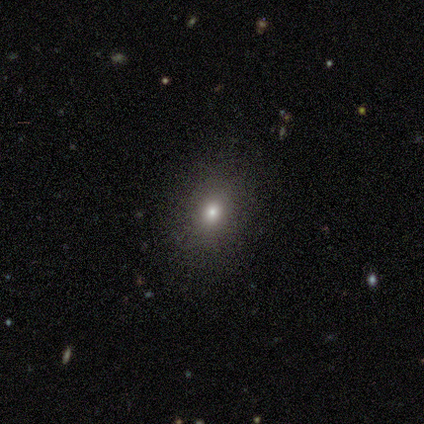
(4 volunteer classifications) This is likely a smooth galaxy (75%). How rounded: likely round (67%). Merging: likely none (67%).